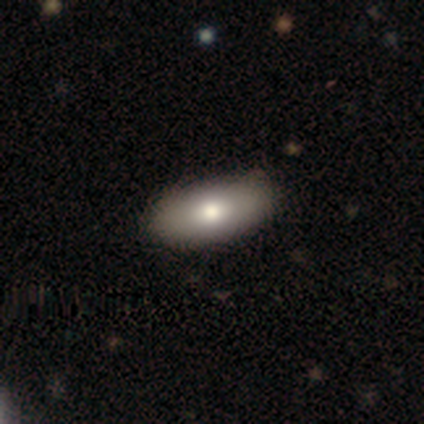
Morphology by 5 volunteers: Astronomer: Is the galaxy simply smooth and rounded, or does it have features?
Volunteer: smooth — 80%.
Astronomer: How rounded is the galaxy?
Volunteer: in between — 100%.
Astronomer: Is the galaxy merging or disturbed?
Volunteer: none — 60% (runner-up: minor disturbance, 40%).